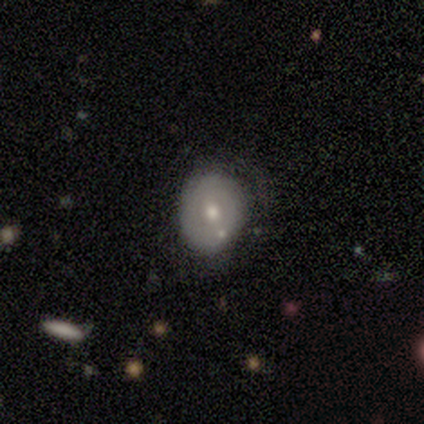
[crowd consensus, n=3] Q: Smooth or featured?
A: featured or disk (100%)
Q: Edge-on disk?
A: no (100%)
Q: Bar?
A: no (67%); runner-up: weak (33%)
Q: Spiral arms?
A: no (67%); runner-up: yes (33%)
Q: Bulge size?
A: moderate (67%); runner-up: small (33%)
Q: Merging?
A: minor disturbance (33%); tied with: major disturbance (33%); merger (33%)